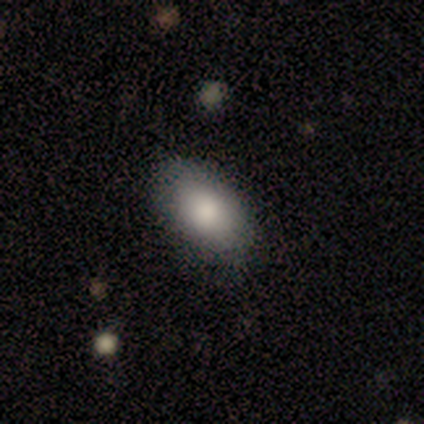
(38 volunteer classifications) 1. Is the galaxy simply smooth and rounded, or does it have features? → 87% smooth, 8% featured or disk, 5% star or artifact.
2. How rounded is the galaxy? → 82% in between, 15% round, 3% cigar-shaped.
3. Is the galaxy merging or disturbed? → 64% none, 6% minor disturbance, 3% merger, 0% major disturbance.